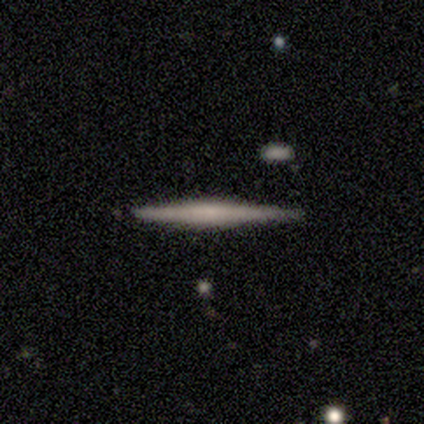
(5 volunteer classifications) Smooth or featured?
  - featured or disk: 60% *
  - smooth: 40%
  - star or artifact: 0%
Edge-on disk?
  - yes: 100% *
  - no: 0%
Edge-on bulge?
  - none: 100% *
  - boxy: 0%
  - rounded: 0%
Merging?
  - none: 100% *
  - minor disturbance: 0%
  - major disturbance: 0%
  - merger: 0%